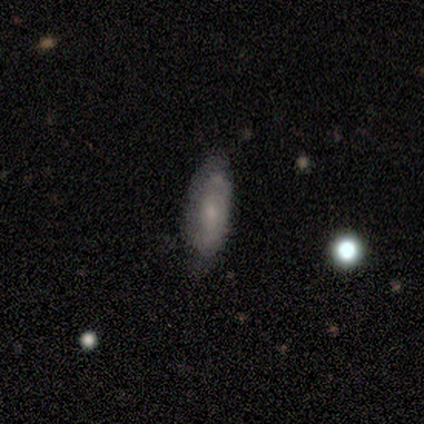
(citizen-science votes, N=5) A smooth galaxy with no disk features (80%) that is in between round and cigar-shaped (75%). Merging: none (100%).